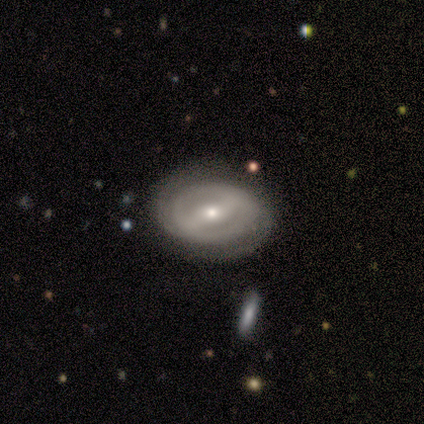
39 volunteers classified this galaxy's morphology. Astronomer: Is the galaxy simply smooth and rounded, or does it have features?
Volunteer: featured or disk — 82%.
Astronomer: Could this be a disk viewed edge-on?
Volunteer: no — 100%.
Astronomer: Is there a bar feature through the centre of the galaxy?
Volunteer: strong — 47% (runner-up: weak, 31%).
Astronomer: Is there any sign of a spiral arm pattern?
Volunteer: yes — 66%.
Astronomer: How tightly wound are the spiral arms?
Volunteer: tight — 57% (runner-up: medium, 33%).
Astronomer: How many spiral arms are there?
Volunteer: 2 — 62%.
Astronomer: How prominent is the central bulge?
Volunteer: moderate — 44% (runner-up: small, 38%).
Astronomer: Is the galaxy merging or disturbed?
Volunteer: none — 82%.